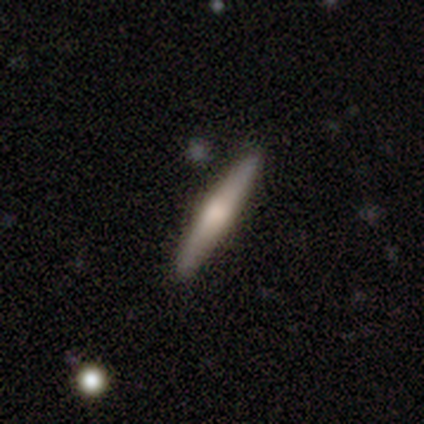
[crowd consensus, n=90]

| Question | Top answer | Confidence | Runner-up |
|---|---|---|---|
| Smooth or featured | smooth | 53% | featured or disk (46%) |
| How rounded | cigar-shaped | 96% | in between (4%) |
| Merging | none | 90% | minor disturbance (9%) |